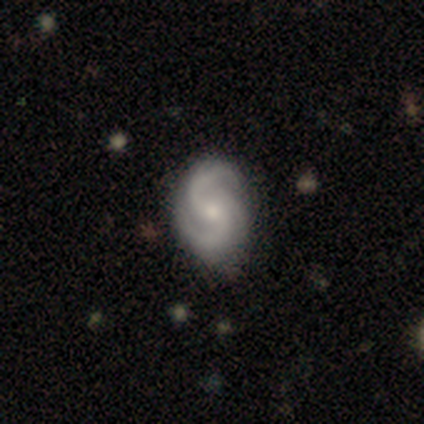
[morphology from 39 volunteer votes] smooth-or-featured: featured or disk: 90% | star or artifact: 8% | smooth: 3%
  disk-edge-on: no: 97% | yes: 3%
    bar: no: 68% | weak: 18% | strong: 15%
    has-spiral-arms: yes: 100% | no: 0%
      spiral-winding: medium: 47% | tight: 32% | loose: 21%
      spiral-arm-count: 2: 50% | 3: 44% | 4: 3% | can't tell: 3% | 1: 0% | more than 4: 0%
    bulge-size: small: 56% | moderate: 41% | dominant: 3% | large: 0% | none: 0%
  merging: none: 86% | minor disturbance: 8% | major disturbance: 3% | merger: 3%